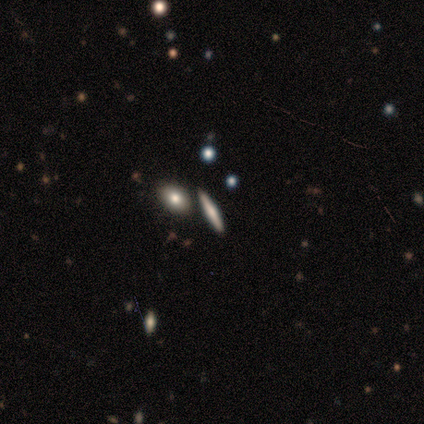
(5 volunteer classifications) This appears to be a smooth galaxy with no disk features (40%, tied with star or artifact) that is cigar-shaped (100%). Merging: none (100%).